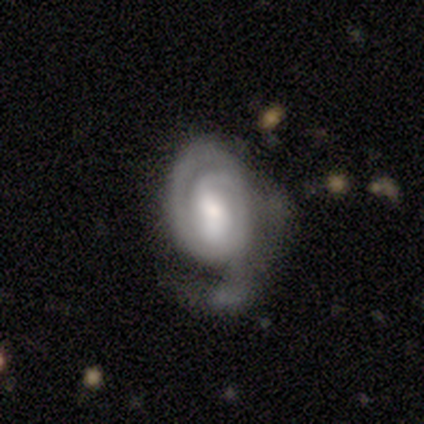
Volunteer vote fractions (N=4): featured or disk 100%, smooth 0%, star or artifact 0%. Down the decision tree: edge-on disk — no (100%); bar — weak (75%); spiral arms — yes (100%); spiral arm count — 2 (50%); spiral winding — tight (50%); bulge size — moderate (75%); merging — major disturbance (50%).